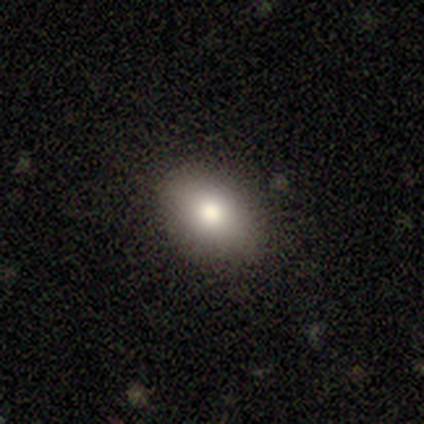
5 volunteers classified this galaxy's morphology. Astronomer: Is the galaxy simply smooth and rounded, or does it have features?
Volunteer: smooth — 60%.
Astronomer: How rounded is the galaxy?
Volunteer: in between — 100%.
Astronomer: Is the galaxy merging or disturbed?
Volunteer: none — 100%.